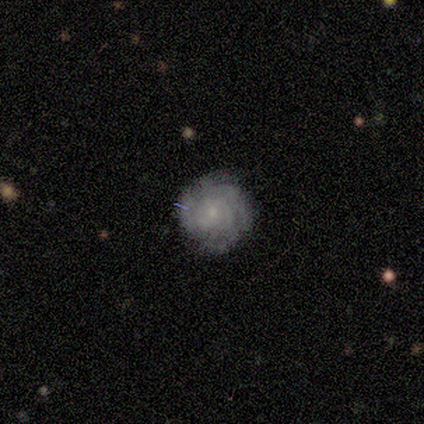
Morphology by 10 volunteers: A featured or disk galaxy (80%) with no bar (62%), 4 (57%) tight (86%) spiral arms (88%) and a small central bulge (100%). Merging: none (70%).